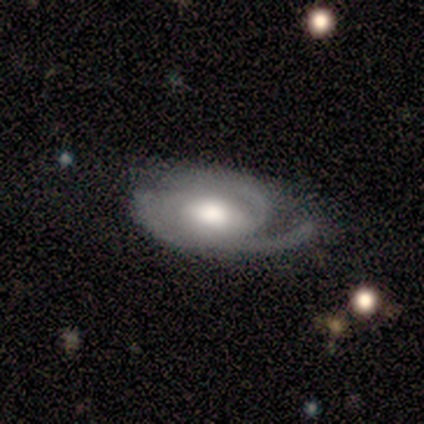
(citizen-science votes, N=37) Smooth or featured? featured or disk (89%)
Edge-on disk? no (100%)
Bar? no (52%)
Spiral arms? yes (94%)
Spiral winding? tight (45%)
Spiral arm count? 2 (35%)
Bulge size? moderate (52%)
Merging? none (75%)